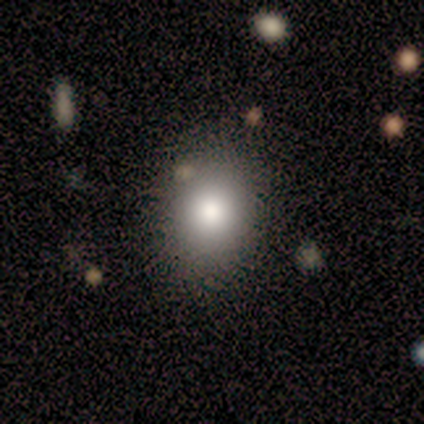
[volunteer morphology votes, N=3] Smooth or featured?
  - smooth: 100% *
  - featured or disk: 0%
  - star or artifact: 0%
How rounded?
  - round: 67% *
  - in between: 33%
  - cigar-shaped: 0%
Merging?
  - none: 67% *
  - major disturbance: 33%
  - minor disturbance: 0%
  - merger: 0%